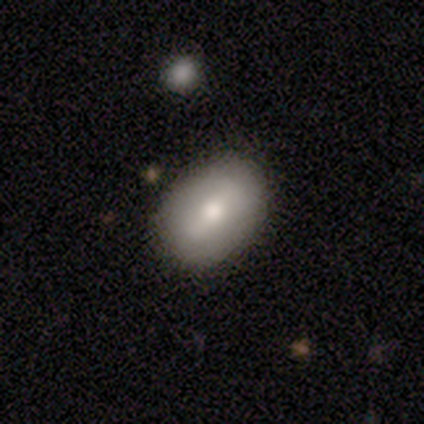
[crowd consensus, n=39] smooth 64%, featured or disk 36%, star or artifact 0%. Down the decision tree: how rounded — in between (88%); merging — none (54%).